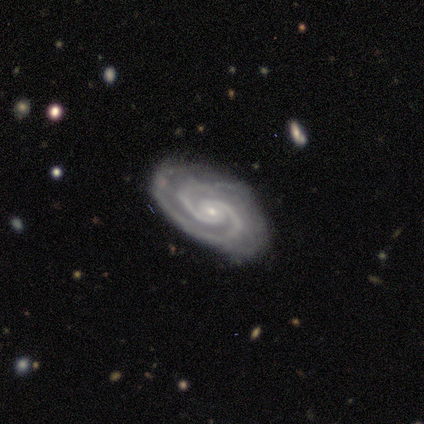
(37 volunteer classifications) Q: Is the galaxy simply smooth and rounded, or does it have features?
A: featured or disk — 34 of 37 (92%).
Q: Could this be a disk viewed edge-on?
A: no — 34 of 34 (100%).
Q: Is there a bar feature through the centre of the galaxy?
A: no — 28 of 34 (82%).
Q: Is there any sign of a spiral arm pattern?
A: yes — 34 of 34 (100%).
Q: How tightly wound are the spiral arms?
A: tight — 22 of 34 (65%).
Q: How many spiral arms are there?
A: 2 — 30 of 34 (88%).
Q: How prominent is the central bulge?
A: small — 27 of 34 (79%).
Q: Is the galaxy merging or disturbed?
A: none — 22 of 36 (61%).